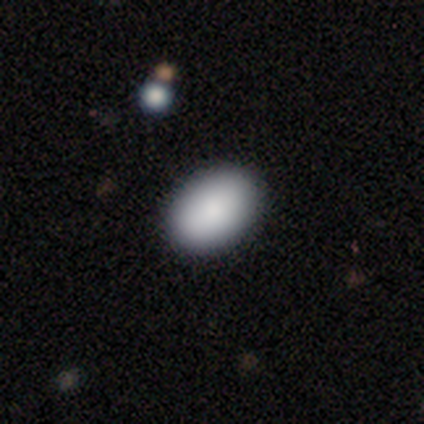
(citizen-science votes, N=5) Q: Smooth or featured?
A: smooth (80%); runner-up: star or artifact (20%)
Q: How rounded?
A: in between (100%)
Q: Merging?
A: none (100%)